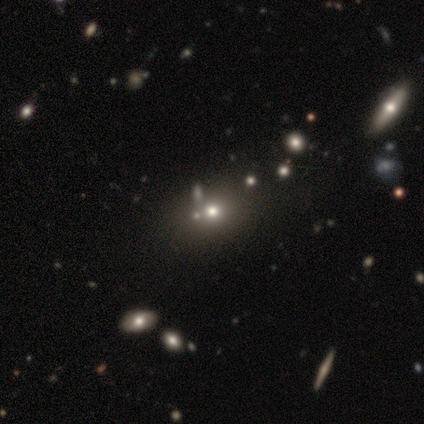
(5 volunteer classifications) Smooth or featured?
  - smooth: 60% *
  - featured or disk: 40%
  - star or artifact: 0%
How rounded?
  - round: 67% *
  - in between: 33%
  - cigar-shaped: 0%
Merging?
  - none: 60% *
  - merger: 40%
  - minor disturbance: 0%
  - major disturbance: 0%